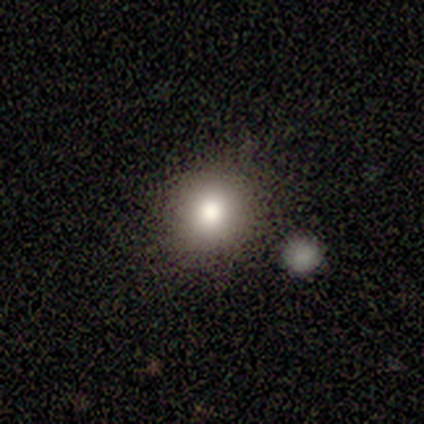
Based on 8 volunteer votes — This is clearly a smooth galaxy (100%). How rounded: clearly round (100%). Merging: likely none (75%).